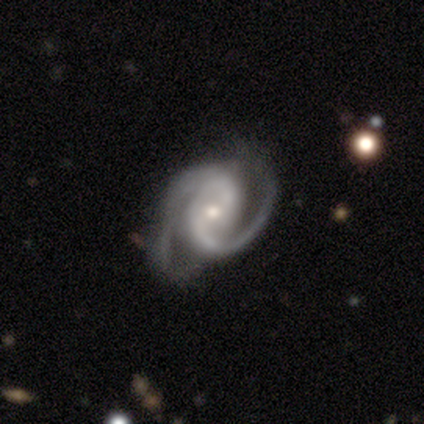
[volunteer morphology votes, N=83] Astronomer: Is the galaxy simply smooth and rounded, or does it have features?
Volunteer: featured or disk — 94%.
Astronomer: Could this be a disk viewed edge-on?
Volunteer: no — 99%.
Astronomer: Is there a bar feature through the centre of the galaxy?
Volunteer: no — 53% (runner-up: weak, 36%).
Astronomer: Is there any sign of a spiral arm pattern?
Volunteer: yes — 100%.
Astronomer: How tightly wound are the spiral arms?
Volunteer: tight — 47%, tied with medium at 47%.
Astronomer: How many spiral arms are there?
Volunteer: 2 — 91%.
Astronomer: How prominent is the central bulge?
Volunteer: small — 57% (runner-up: moderate, 40%).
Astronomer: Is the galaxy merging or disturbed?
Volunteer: none — 60%.